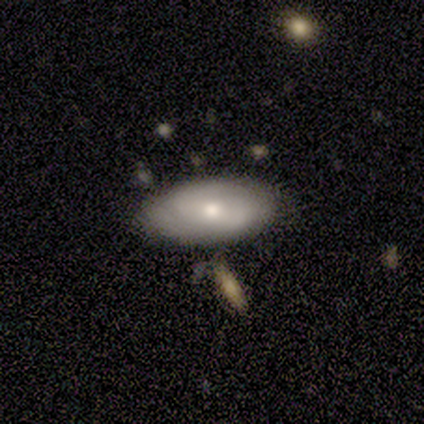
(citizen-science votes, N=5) Q: Smooth or featured?
A: smooth (60%); runner-up: featured or disk (40%)
Q: How rounded?
A: in between (100%)
Q: Merging?
A: none (80%); runner-up: minor disturbance (20%)